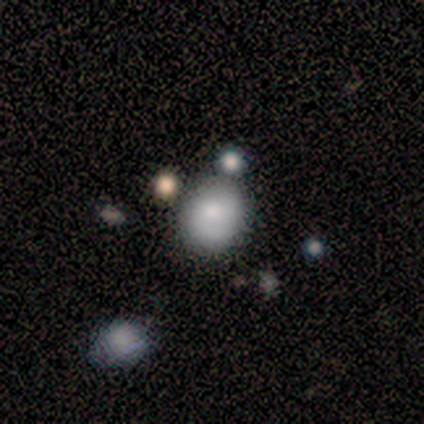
This is likely a smooth galaxy (60%). How rounded: clearly round (100%). Merging: possibly none (50%).